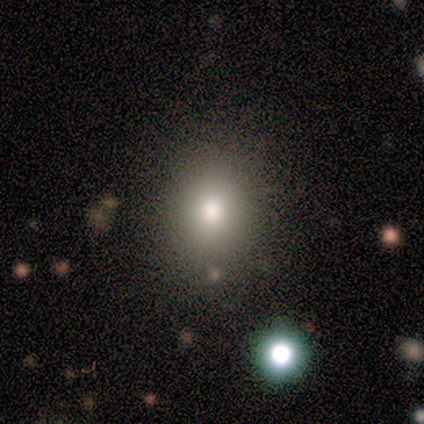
Overall: smooth (67%). How rounded: round (50%, tied with in between). Merging: none (100%).